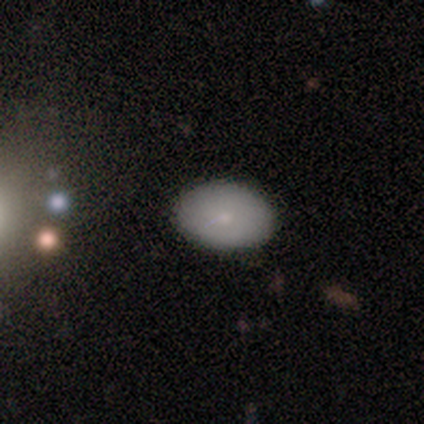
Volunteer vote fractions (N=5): This appears to be a smooth galaxy with no disk features (80%) that is in between round and cigar-shaped (100%). Merging: none (100%).